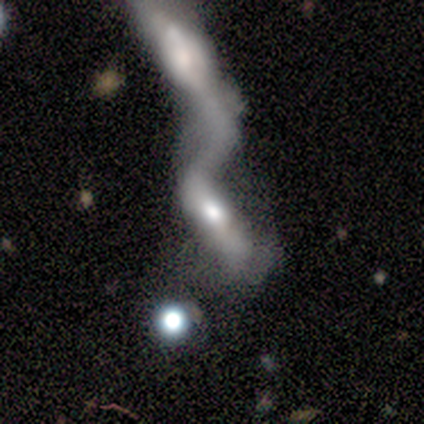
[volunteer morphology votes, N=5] Smooth or featured: featured or disk — 60% (smooth — 20%)
Edge-on disk: no — 100%
Bar: no — 67% (strong — 33%)
Spiral arms: no — 67% (yes — 33%)
Bulge size: large — 33% (tied with moderate — 33%; none — 33%)
Merging: merger — 100%